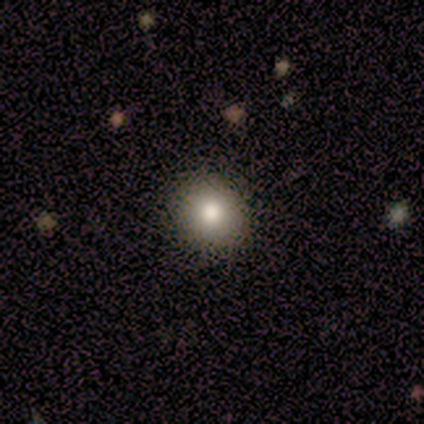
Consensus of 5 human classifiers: Overall: smooth (80%). How rounded: round (100%). Merging: none (40%, tied with minor disturbance).